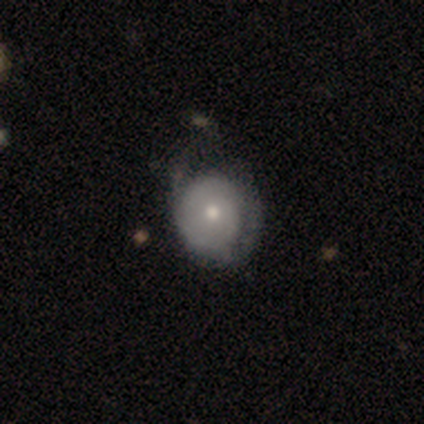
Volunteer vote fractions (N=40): Smooth or featured? smooth (50%)
How rounded? round (85%)
Merging? none (37%)